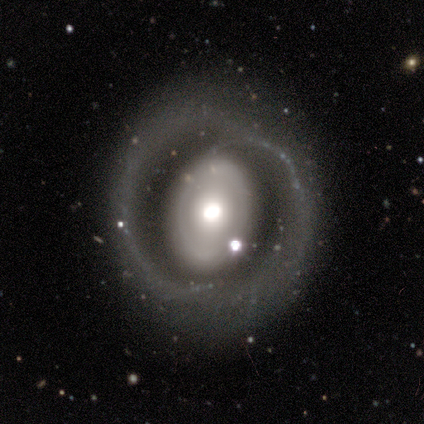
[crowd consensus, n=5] smooth-or-featured: featured or disk: 100% | smooth: 0% | star or artifact: 0%
  disk-edge-on: no: 100% | yes: 0%
    bar: no: 80% | weak: 20% | strong: 0%
    has-spiral-arms: yes: 60% | no: 40%
      spiral-winding: loose: 67% | tight: 33% | medium: 0%
      spiral-arm-count: 2: 100% | 1: 0% | 3: 0% | 4: 0% | more than 4: 0% | can't tell: 0%
    bulge-size: moderate: 60% | large: 20% | small: 20% | dominant: 0% | none: 0%
  merging: none: 100% | minor disturbance: 0% | major disturbance: 0% | merger: 0%